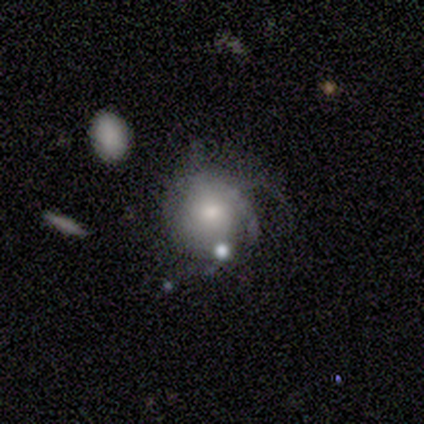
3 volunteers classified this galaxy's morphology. Smooth or featured: featured or disk — 67% (smooth — 33%)
Edge-on disk: no — 100%
Bar: no — 100%
Spiral arms: yes — 100%
Spiral winding: tight — 100%
Spiral arm count: 2 — 50% (tied with can't tell — 50%)
Bulge size: moderate — 100%
Merging: major disturbance — 67% (minor disturbance — 33%)